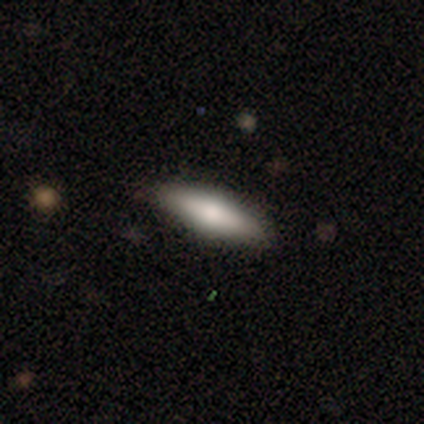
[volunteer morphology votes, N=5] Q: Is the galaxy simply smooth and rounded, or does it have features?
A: smooth — 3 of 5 (60%).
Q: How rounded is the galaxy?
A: in between — 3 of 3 (100%).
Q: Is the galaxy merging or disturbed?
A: none — 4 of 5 (80%).